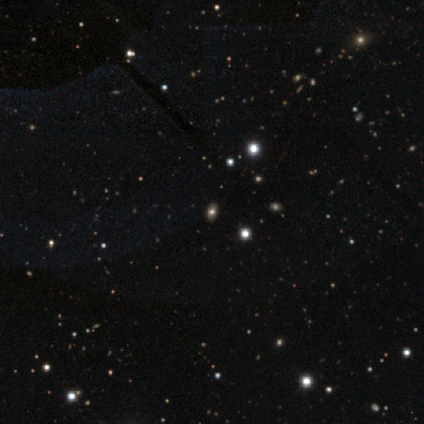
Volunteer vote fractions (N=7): Smooth or featured: smooth — 57% (star or artifact — 29%)
How rounded: in between — 75% (round — 25%)
Merging: none — 60% (minor disturbance — 40%)